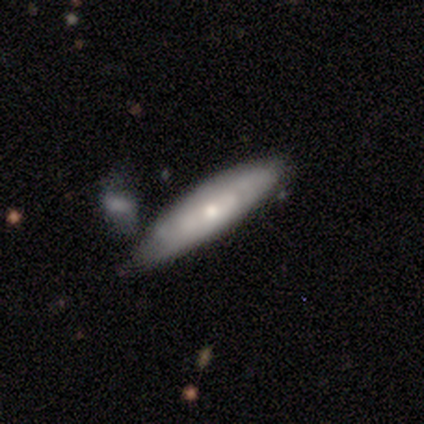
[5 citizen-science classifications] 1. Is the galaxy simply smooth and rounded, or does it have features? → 60% smooth, 40% featured or disk, 0% star or artifact.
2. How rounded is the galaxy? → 100% cigar-shaped, 0% round, 0% in between.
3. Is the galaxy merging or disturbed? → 60% none, 20% minor disturbance, 20% major disturbance, 0% merger.